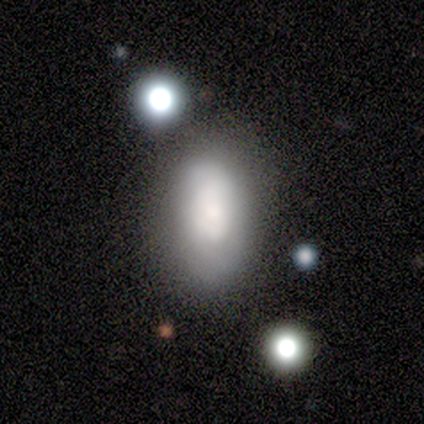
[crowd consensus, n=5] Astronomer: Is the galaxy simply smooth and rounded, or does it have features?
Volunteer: smooth — 60%.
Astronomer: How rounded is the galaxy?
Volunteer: in between — 100%.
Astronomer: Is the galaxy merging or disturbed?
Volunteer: none — 50%, tied with minor disturbance at 50%.